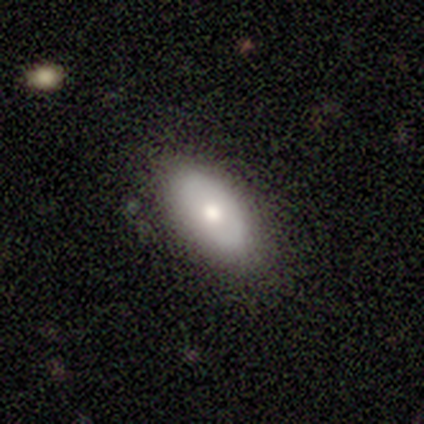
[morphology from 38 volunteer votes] Smooth or featured? 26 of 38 (68%) said smooth. How rounded? 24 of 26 (92%) said in between. Merging? 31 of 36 (86%) said none.